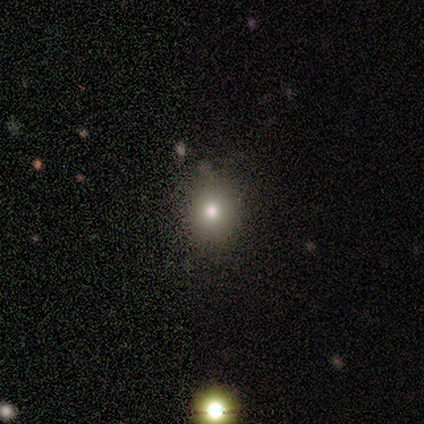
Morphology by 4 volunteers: This is possibly a smooth galaxy (50%, tied with star or artifact). How rounded: possibly round (50%, tied with in between). Merging: clearly none (100%).